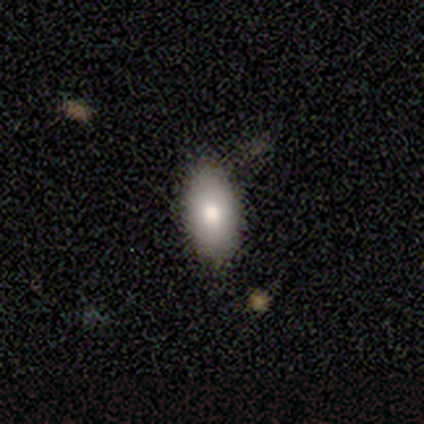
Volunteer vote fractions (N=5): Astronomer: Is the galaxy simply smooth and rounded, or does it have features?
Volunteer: smooth — 80%.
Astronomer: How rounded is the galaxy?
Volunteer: in between — 100%.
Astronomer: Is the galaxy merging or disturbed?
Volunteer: none — 60% (runner-up: minor disturbance, 40%).